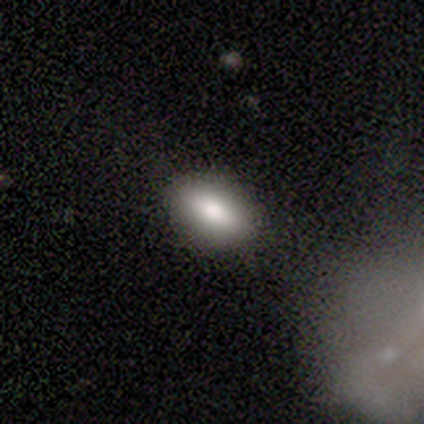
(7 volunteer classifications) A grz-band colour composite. It shows a smooth galaxy with no disk features (86%) that is in between round and cigar-shaped (100%). Merging: none (83%).